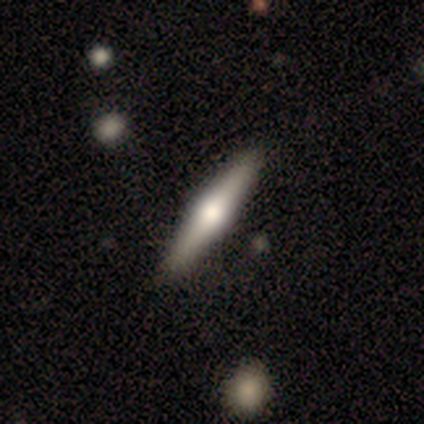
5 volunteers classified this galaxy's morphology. Smooth or featured?
  - featured or disk: 60% *
  - smooth: 20%
  - star or artifact: 20%
Edge-on disk?
  - yes: 100% *
  - no: 0%
Edge-on bulge?
  - rounded: 100% *
  - boxy: 0%
  - none: 0%
Merging?
  - none: 75% *
  - major disturbance: 25%
  - minor disturbance: 0%
  - merger: 0%